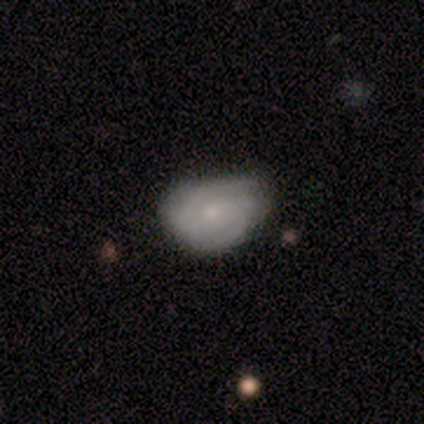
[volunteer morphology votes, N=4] smooth-or-featured: featured or disk: 75% | smooth: 25% | star or artifact: 0%
  disk-edge-on: no: 100% | yes: 0%
    bar: no: 67% | strong: 33% | weak: 0%
    has-spiral-arms: yes: 67% | no: 33%
      spiral-winding: medium: 100% | tight: 0% | loose: 0%
      spiral-arm-count: 2: 100% | 1: 0% | 3: 0% | 4: 0% | more than 4: 0% | can't tell: 0%
    bulge-size: small: 67% | moderate: 33% | dominant: 0% | large: 0% | none: 0%
  merging: none: 50% (tied) | minor disturbance: 50% (tied) | major disturbance: 0% | merger: 0%